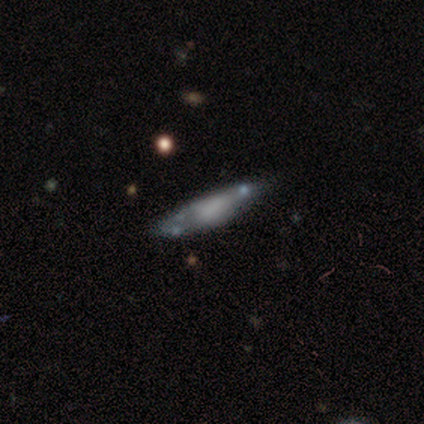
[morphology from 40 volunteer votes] Smooth or featured? featured or disk (55%)
Edge-on disk? no (55%)
Bar? no (83%)
Spiral arms? no (83%)
Bulge size? none (83%)
Merging? none (57%)